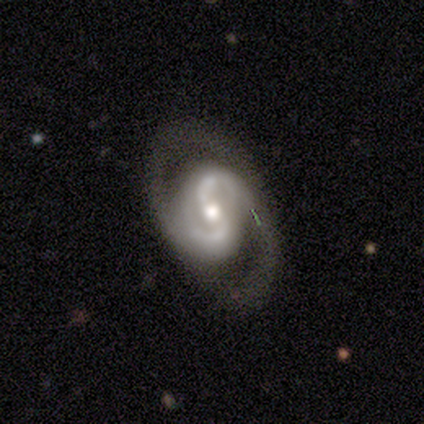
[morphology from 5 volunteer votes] Smooth or featured? featured or disk (100%)
Edge-on disk? no (100%)
Bar? no (80%)
Spiral arms? yes (100%)
Spiral winding? medium (80%)
Spiral arm count? 2 (80%)
Bulge size? moderate (80%)
Merging? none (80%)